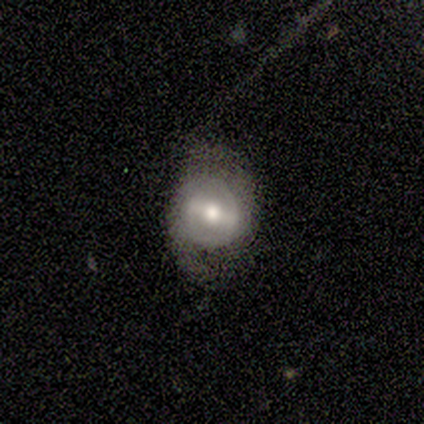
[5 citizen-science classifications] Overall: featured or disk (60%; smooth 40%). Edge-on disk: no (100%). Bar: strong (67%; weak 33%). Spiral arms: yes (100%). Spiral arm count: 2 (100%). Spiral winding: medium (67%; loose 33%). Bulge size: moderate (67%; small 33%). Merging: none (80%).